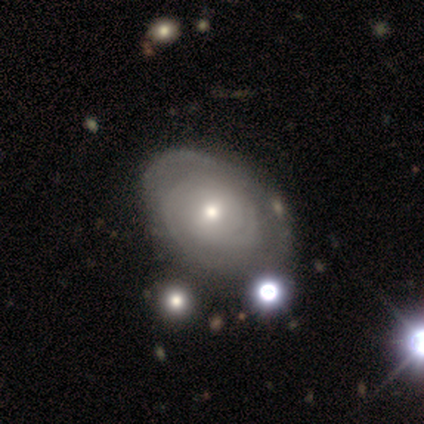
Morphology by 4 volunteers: This appears to be a featured or disk galaxy (100%) with a weak bar (50%, tied with no), 2 (50%) tight (75%) spiral arms (100%) and a small central bulge (50%). Merging: minor disturbance (50%).